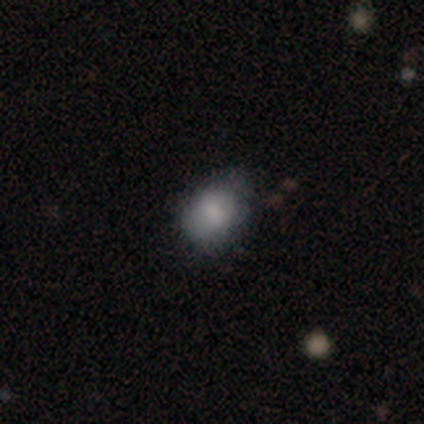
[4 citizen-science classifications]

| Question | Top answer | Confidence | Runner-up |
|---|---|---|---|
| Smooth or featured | smooth | 100% | — |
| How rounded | round | 50% | tied: in between (50%) |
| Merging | none | 75% | minor disturbance (25%) |